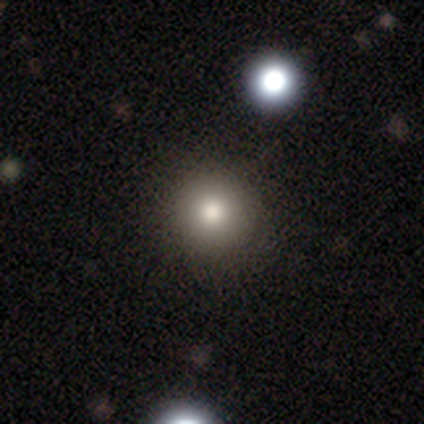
Morphology: type=smooth (44%); roundness=round (100%); merging=none (100%).